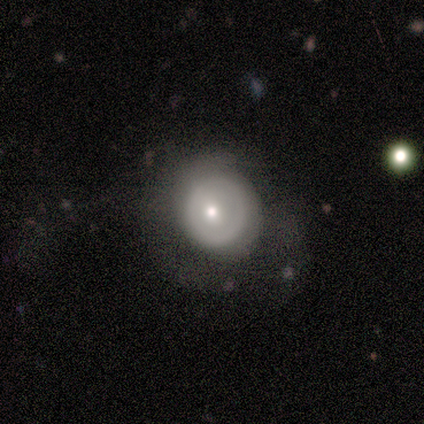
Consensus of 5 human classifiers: A featured or disk galaxy (80%) with a weak bar (50%, tied with no), no spiral arms (100%) and a moderate central bulge (50%, tied with small).

Vote fractions:
- Smooth or featured? featured or disk: 80% / smooth: 20% / star or artifact: 0%
- Edge-on disk? no: 100% / yes: 0%
- Bar? weak: 50% (tied) / no: 50% (tied) / strong: 0%
- Spiral arms? no: 100% / yes: 0%
- Bulge size? moderate: 50% (tied) / small: 50% (tied) / dominant: 0% / large: 0% / none: 0%
- Merging? minor disturbance: 60% / none: 20% / major disturbance: 20% / merger: 0%